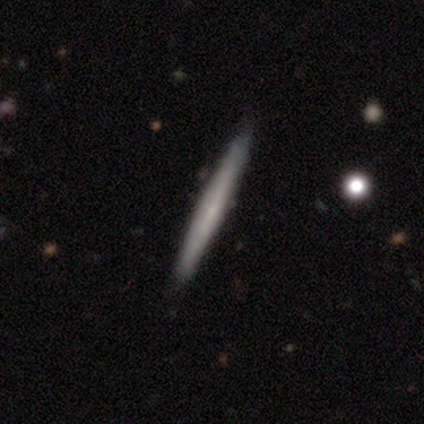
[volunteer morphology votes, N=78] Smooth or featured? 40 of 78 (51%) said featured or disk. Edge-on disk? 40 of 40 (100%) said yes. Edge-on bulge? 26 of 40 (65%) said none. Merging? 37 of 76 (49%) said none.